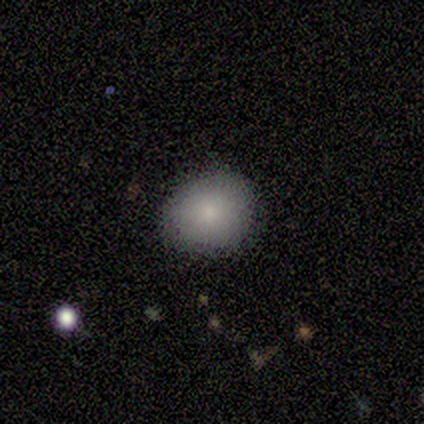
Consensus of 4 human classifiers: This is clearly a smooth galaxy (100%). How rounded: clearly round (100%). Merging: clearly none (100%).